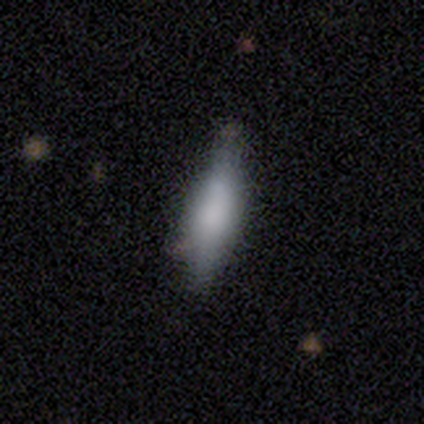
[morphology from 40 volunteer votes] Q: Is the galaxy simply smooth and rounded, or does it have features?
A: smooth — 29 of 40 (72%).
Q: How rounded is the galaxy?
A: cigar-shaped — 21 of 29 (72%).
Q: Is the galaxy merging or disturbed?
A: none — 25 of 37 (68%).